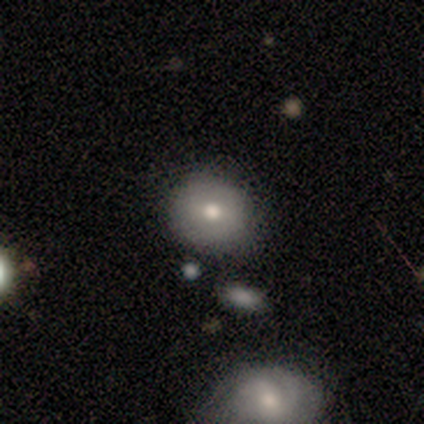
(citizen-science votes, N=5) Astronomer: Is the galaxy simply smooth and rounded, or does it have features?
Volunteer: featured or disk — 60%.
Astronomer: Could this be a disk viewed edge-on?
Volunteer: no — 100%.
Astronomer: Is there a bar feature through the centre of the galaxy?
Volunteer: weak — 67%.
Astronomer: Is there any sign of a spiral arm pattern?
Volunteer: no — 100%.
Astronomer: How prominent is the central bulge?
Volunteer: large — 33%, tied with moderate and small at 33%.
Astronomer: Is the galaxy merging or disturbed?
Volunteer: none — 50%, tied with minor disturbance at 50%.